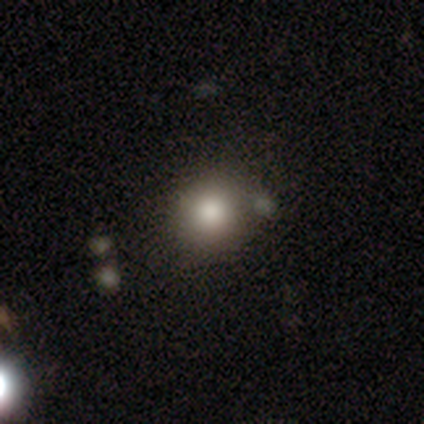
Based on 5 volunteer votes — Smooth or featured? smooth (40%, tied with featured or disk)
How rounded? round (100%)
Merging? none (75%)